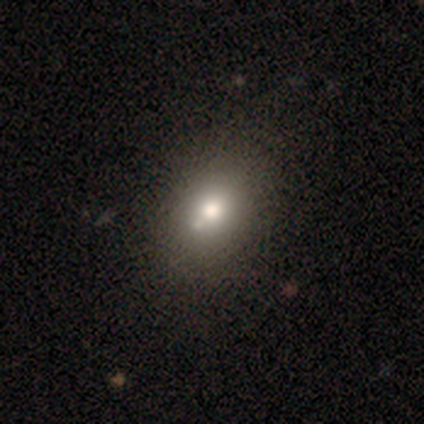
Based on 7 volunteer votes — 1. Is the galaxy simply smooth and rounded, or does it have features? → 71% smooth, 29% star or artifact, 0% featured or disk.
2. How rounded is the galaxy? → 100% in between, 0% round, 0% cigar-shaped.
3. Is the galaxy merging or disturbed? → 80% none, 20% major disturbance, 0% minor disturbance, 0% merger.